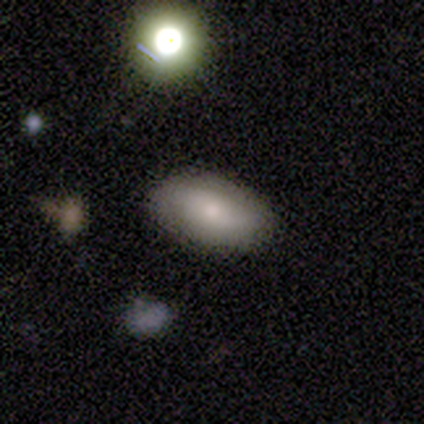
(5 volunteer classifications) This is marginally a smooth galaxy (40%, tied with featured or disk). How rounded: clearly in between (100%). Merging: likely none (75%).